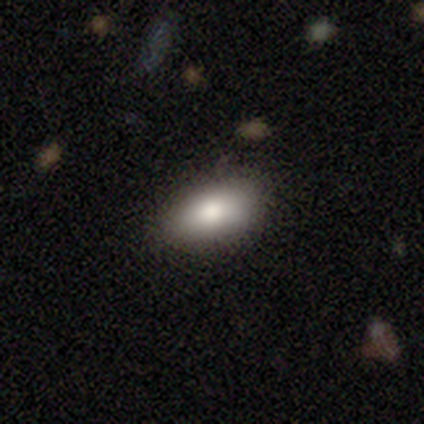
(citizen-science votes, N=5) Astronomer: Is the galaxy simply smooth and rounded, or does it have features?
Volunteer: smooth — 100%.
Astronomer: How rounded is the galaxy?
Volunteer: in between — 100%.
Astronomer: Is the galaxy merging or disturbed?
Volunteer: none — 80%.